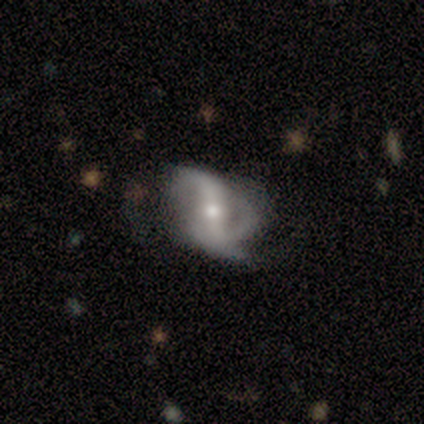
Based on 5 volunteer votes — This appears to be a featured or disk galaxy (80%) with no bar (50%), 2 (75%) loose (50%) spiral arms (100%) and a moderate central bulge (75%). Merging: none (40%, tied with minor disturbance).